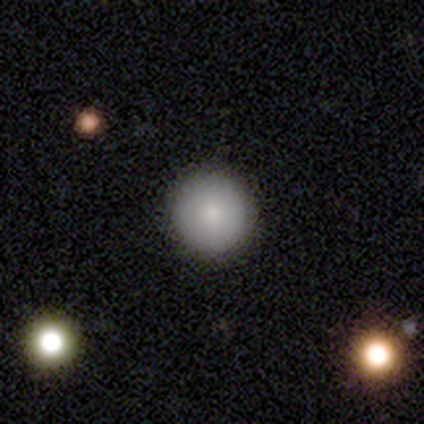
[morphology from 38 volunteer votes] smooth 71%, featured or disk 18%, star or artifact 11%. Down the decision tree: how rounded — round (96%); merging — none (97%).